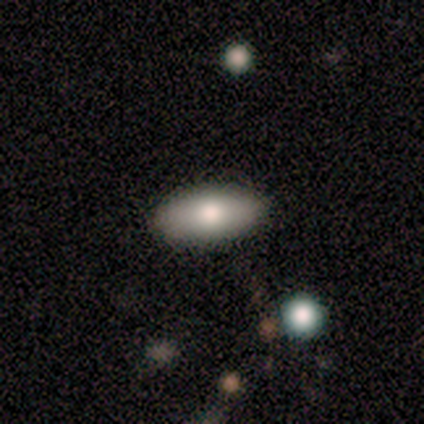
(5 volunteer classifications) smooth-or-featured: star or artifact: 60% | smooth: 20% | featured or disk: 20%